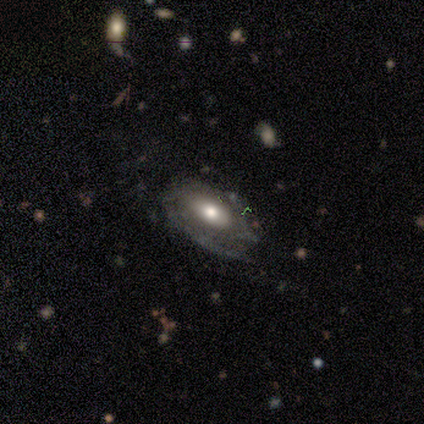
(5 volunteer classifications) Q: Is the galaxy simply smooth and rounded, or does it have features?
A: featured or disk — 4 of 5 (80%).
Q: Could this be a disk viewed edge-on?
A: no — 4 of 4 (100%).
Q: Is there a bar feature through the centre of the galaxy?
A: no — 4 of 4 (100%).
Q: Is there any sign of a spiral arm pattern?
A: yes — 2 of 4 (50%, tied with no).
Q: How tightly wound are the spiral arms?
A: tight — 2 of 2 (100%).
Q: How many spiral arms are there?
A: can't tell — 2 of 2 (100%).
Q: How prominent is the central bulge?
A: moderate — 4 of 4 (100%).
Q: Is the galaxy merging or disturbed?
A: none — 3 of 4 (75%).